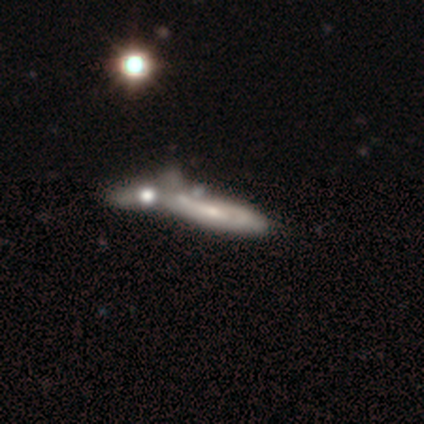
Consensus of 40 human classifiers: smooth-or-featured: featured or disk: 70% | smooth: 28% | star or artifact: 2%
  disk-edge-on: no: 54% | yes: 46%
    bar: no: 67% | weak: 27% | strong: 7%
    has-spiral-arms: yes: 73% | no: 27%
      spiral-winding: tight: 73% | loose: 18% | medium: 9%
      spiral-arm-count: can't tell: 64% | 2: 36% | 1: 0% | 3: 0% | 4: 0% | more than 4: 0%
    bulge-size: small: 60% | moderate: 33% | large: 7% | dominant: 0% | none: 0%
  merging: merger: 54% | major disturbance: 8% | none: 5% | minor disturbance: 5%